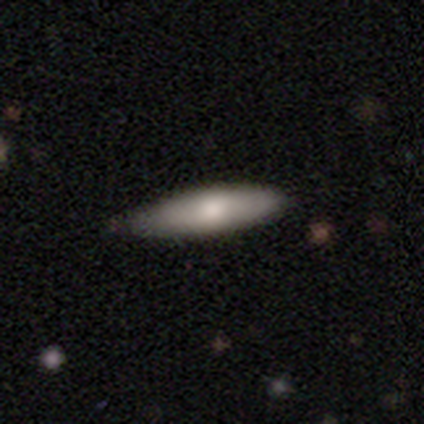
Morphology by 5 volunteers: smooth 60%, featured or disk 40%, star or artifact 0%. Down the decision tree: how rounded — cigar-shaped (67%); merging — none (80%).